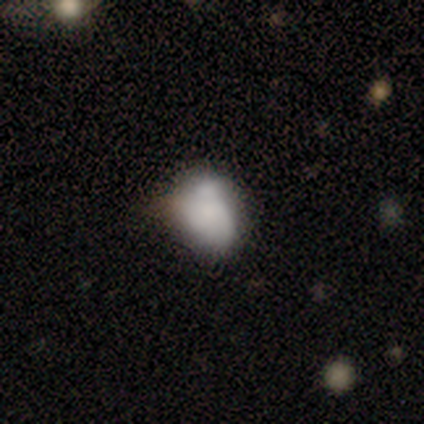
A featured or disk galaxy (67%) with no bar (100%), no spiral arms (100%) and a small central bulge (50%, tied with none).

Vote fractions:
- Smooth or featured? featured or disk: 67% / smooth: 33% / star or artifact: 0%
- Edge-on disk? no: 100% / yes: 0%
- Bar? no: 100% / strong: 0% / weak: 0%
- Spiral arms? no: 100% / yes: 0%
- Bulge size? small: 50% (tied) / none: 50% (tied) / dominant: 0% / large: 0% / moderate: 0%
- Merging? none: 33% (tied) / minor disturbance: 33% (tied) / merger: 33% (tied) / major disturbance: 0%